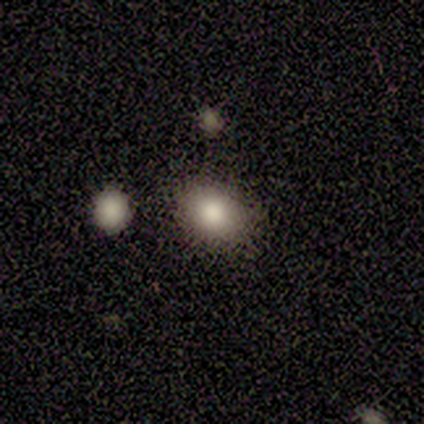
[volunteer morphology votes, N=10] smooth-or-featured: smooth: 100% | featured or disk: 0% | star or artifact: 0%
  how-rounded: round: 60% | in between: 40% | cigar-shaped: 0%
  merging: none: 70% | minor disturbance: 20% | merger: 10% | major disturbance: 0%